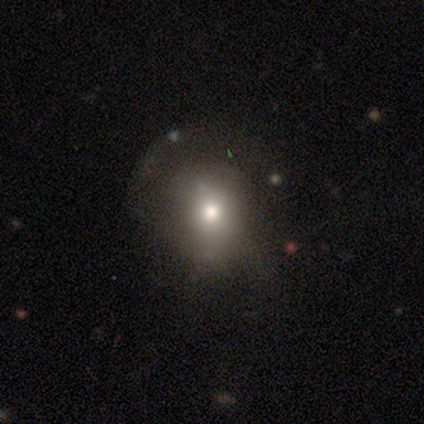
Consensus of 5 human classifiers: Morphology: type=smooth (60%); roundness=round (67%); merging=none (67%).